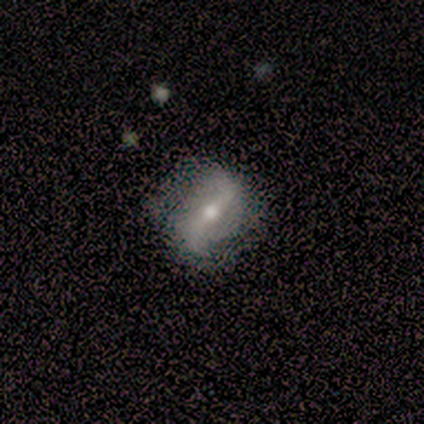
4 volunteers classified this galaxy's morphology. This appears to be a featured or disk galaxy (50%) viewed edge-on (50%, tied with no) with a rounded central bulge (100%). Merging: none (100%).